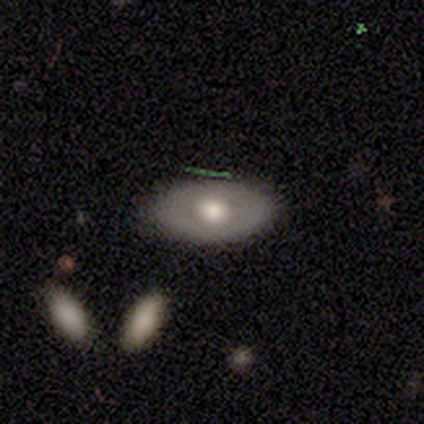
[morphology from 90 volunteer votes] This is possibly a smooth galaxy (58%). How rounded: clearly in between (90%). Merging: clearly none (84%).